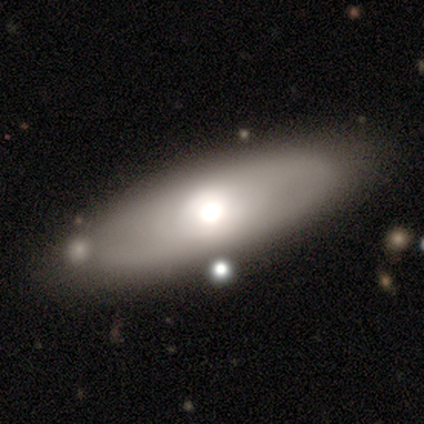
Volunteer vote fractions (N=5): smooth 60%, featured or disk 40%, star or artifact 0%. Down the decision tree: how rounded — in between (67%); merging — none (100%).